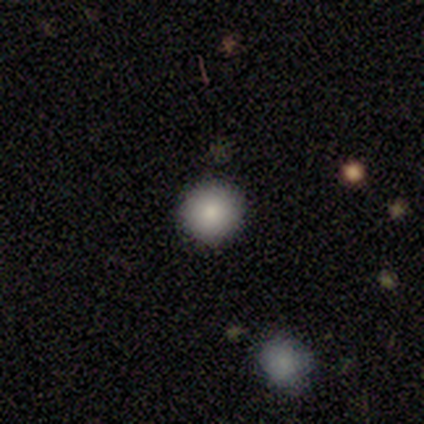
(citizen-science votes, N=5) Morphology: type=smooth (100%); roundness=round (100%); merging=none (80%).